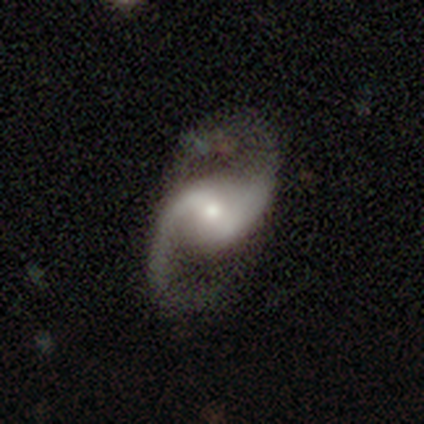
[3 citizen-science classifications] smooth-or-featured: featured or disk: 100% | smooth: 0% | star or artifact: 0%
  disk-edge-on: no: 100% | yes: 0%
    bar: weak: 100% | strong: 0% | no: 0%
    has-spiral-arms: yes: 100% | no: 0%
      spiral-winding: loose: 67% | medium: 33% | tight: 0%
      spiral-arm-count: 2: 100% | 1: 0% | 3: 0% | 4: 0% | more than 4: 0% | can't tell: 0%
    bulge-size: moderate: 100% | dominant: 0% | large: 0% | small: 0% | none: 0%
  merging: none: 100% | minor disturbance: 0% | major disturbance: 0% | merger: 0%